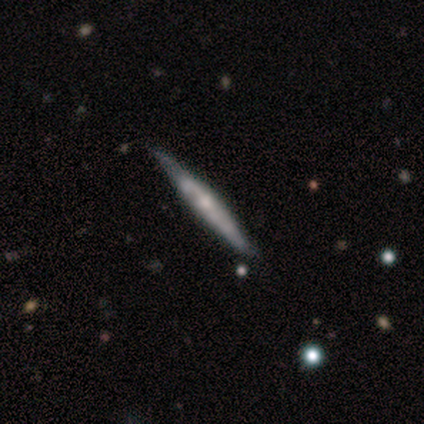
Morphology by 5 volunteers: smooth_or_featured: featured or disk (p=1.00)
disk_edge_on: yes (p=0.80) [alt: no p=0.20]
edge_on_bulge: none (p=1.00)
merging: none (p=1.00)